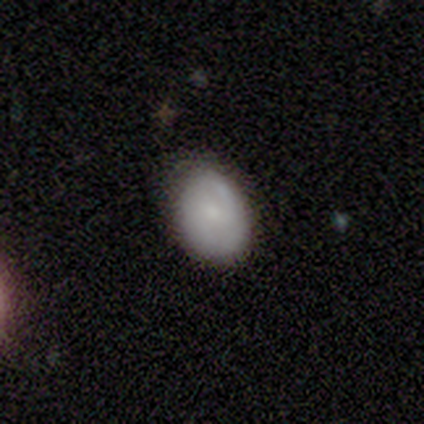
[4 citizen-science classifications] This appears to be a smooth galaxy with no disk features (100%) that is in between round and cigar-shaped (100%). Merging: none (100%).